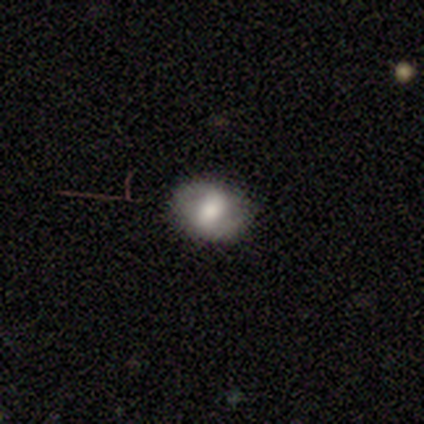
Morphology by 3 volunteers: smooth_or_featured: smooth (p=0.67) [alt: featured or disk p=0.33]
how_rounded: in between (p=1.00)
merging: none (p=1.00)